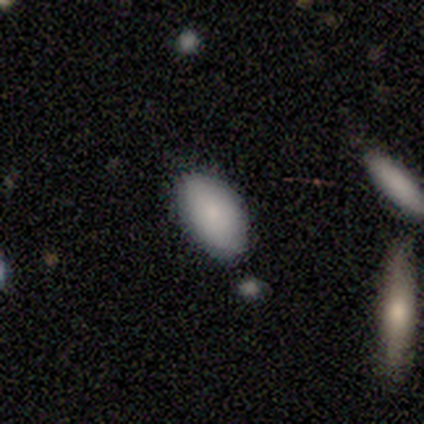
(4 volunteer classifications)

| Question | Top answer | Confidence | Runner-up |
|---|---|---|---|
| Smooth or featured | smooth | 100% | — |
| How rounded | in between | 100% | — |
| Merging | none | 75% | merger (25%) |